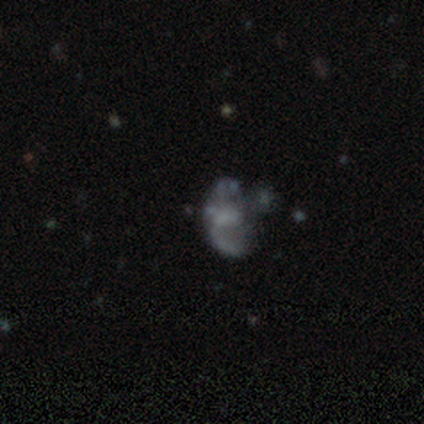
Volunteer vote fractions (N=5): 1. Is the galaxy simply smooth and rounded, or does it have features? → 60% featured or disk, 40% star or artifact, 0% smooth.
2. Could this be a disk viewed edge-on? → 100% no, 0% yes.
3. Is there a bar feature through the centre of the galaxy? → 67% no, 33% weak, 0% strong.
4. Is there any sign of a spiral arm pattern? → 67% no, 33% yes.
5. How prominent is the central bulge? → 33% moderate (tied), 33% small (tied), 33% none (tied), 0% dominant, 0% large.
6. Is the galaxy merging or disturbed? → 33% none (tied), 33% major disturbance (tied), 33% merger (tied), 0% minor disturbance.